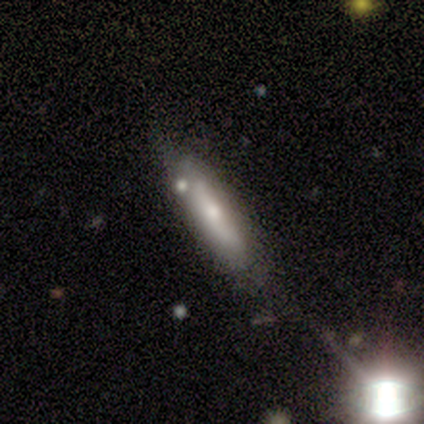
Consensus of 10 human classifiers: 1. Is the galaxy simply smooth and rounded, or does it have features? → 60% featured or disk, 40% smooth, 0% star or artifact.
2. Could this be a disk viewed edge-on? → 100% no, 0% yes.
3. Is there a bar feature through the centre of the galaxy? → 67% no, 17% strong, 17% weak.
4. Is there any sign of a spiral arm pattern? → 83% no, 17% yes.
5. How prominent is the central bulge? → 83% moderate, 17% small, 0% dominant, 0% large, 0% none.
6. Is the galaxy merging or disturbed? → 90% none, 10% merger, 0% minor disturbance, 0% major disturbance.